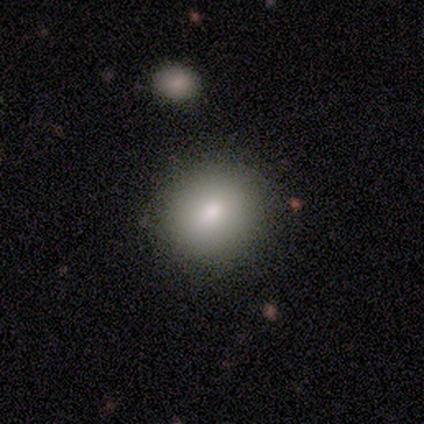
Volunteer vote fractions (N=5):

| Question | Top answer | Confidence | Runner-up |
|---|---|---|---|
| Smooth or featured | smooth | 80% | featured or disk (20%) |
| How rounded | round | 50% | tied: in between (50%) |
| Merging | none | 100% | — |